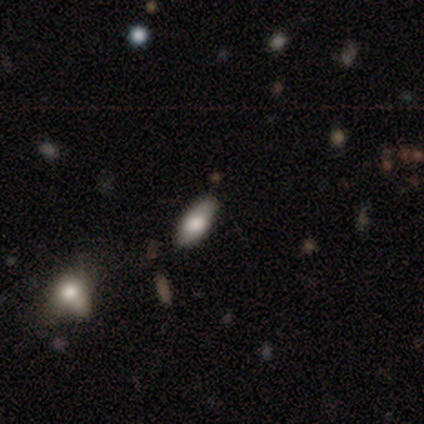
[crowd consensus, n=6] Overall: smooth (100%). How rounded: in between (100%). Merging: none (100%).